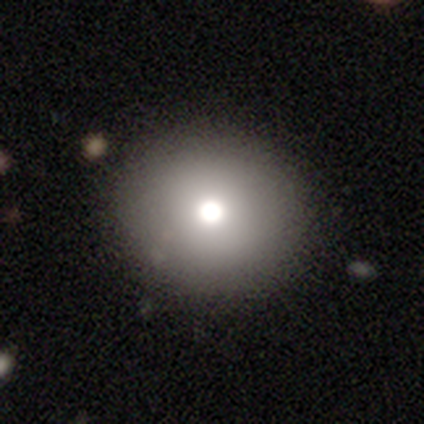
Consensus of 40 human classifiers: Smooth or featured? smooth (80%)
How rounded? round (88%)
Merging? none (90%)